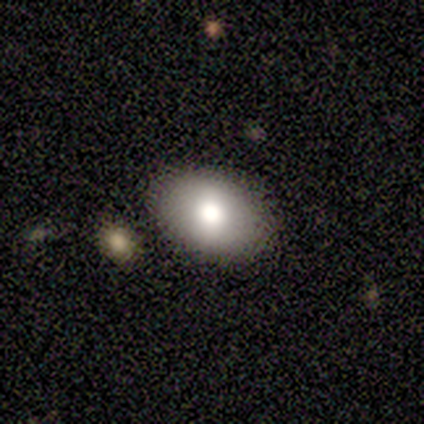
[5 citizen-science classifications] Morphology: type=smooth (80%); roundness=in between (100%); merging=none (100%).